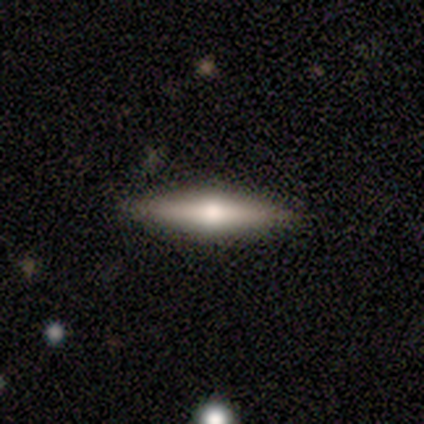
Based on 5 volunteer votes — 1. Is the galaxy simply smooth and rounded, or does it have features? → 80% featured or disk, 20% smooth, 0% star or artifact.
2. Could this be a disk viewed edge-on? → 100% yes, 0% no.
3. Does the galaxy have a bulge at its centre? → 100% rounded, 0% boxy, 0% none.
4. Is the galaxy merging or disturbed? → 100% none, 0% minor disturbance, 0% major disturbance, 0% merger.